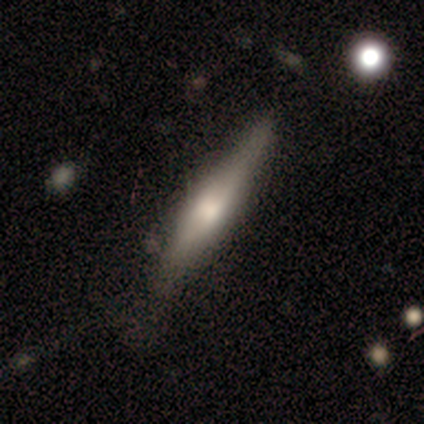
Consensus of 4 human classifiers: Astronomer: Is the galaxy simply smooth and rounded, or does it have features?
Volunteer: featured or disk — 75%.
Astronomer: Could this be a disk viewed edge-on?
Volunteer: yes — 100%.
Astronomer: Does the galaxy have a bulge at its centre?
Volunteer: none — 67%.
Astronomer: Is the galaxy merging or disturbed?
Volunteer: none — 100%.